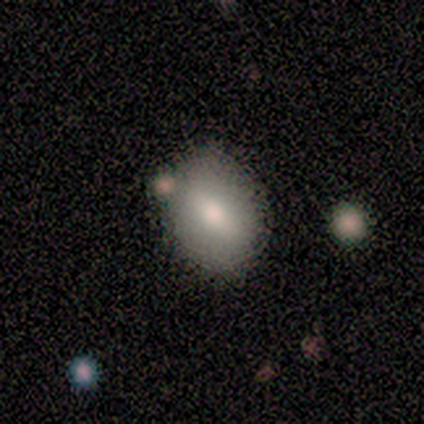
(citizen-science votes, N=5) A smooth galaxy with no disk features (100%) that is round (40%, tied with in between).

Vote fractions:
- Smooth or featured? smooth: 100% / featured or disk: 0% / star or artifact: 0%
- How rounded? round: 40% (tied) / in between: 40% (tied) / cigar-shaped: 20%
- Merging? none: 80% / minor disturbance: 20% / major disturbance: 0% / merger: 0%